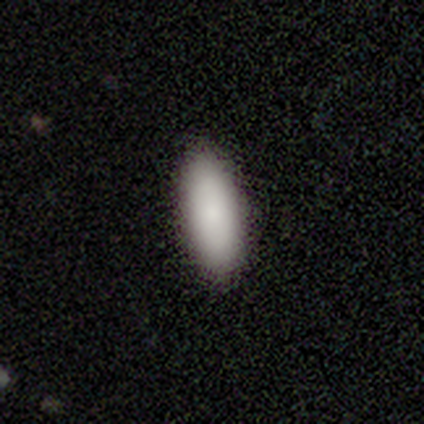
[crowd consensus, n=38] Volunteers were most divided on "how rounded": in between: 85%, cigar-shaped: 15%, round: 0%. More confident: merging — none (92%); smooth or featured — smooth (87%).